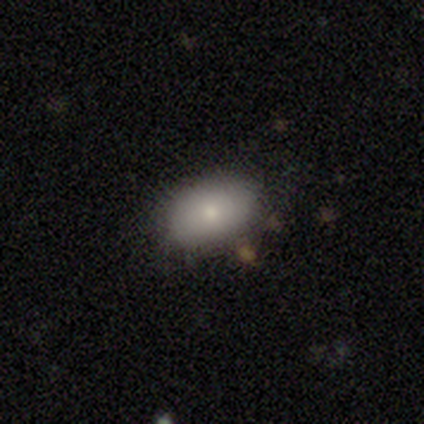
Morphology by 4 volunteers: Overall: smooth (100%). How rounded: in between (100%). Merging: none (100%).